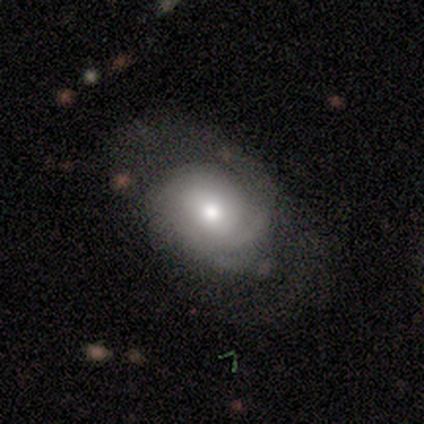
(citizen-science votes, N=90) Volunteers were most divided on "smooth or featured": featured or disk: 50%, smooth: 46%, star or artifact: 4%. Remaining: edge-on disk — no (96%); bar — no (79%); spiral arms — yes (72%); bulge size — moderate (72%); merging — none (60%); spiral winding — tight (52%); spiral arm count — can't tell (45%).